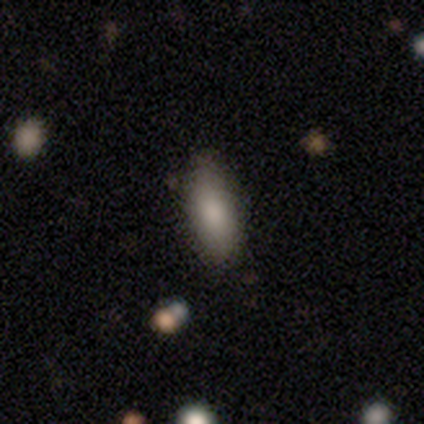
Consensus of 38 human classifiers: smooth 82%, featured or disk 13%, star or artifact 5%. Down the decision tree: how rounded — in between (74%); merging — none (75%).